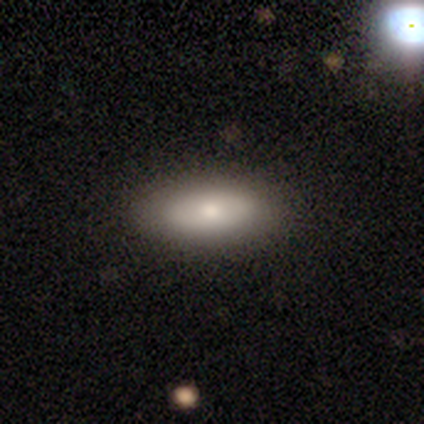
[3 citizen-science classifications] This appears to be a featured or disk galaxy (67%) with no bar (100%), no spiral arms (100%) and a moderate central bulge (100%). Merging: none (100%).